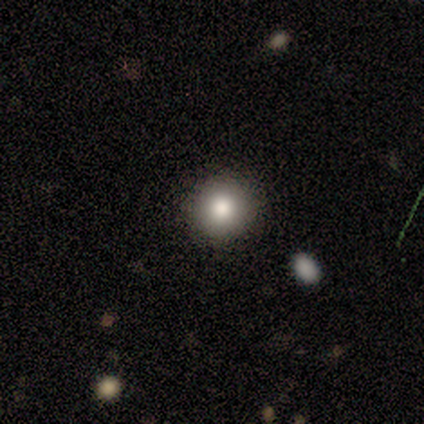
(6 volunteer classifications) smooth-or-featured: smooth: 50% | star or artifact: 33% | featured or disk: 17%
  how-rounded: round: 100% | in between: 0% | cigar-shaped: 0%
  merging: none: 100% | minor disturbance: 0% | major disturbance: 0% | merger: 0%